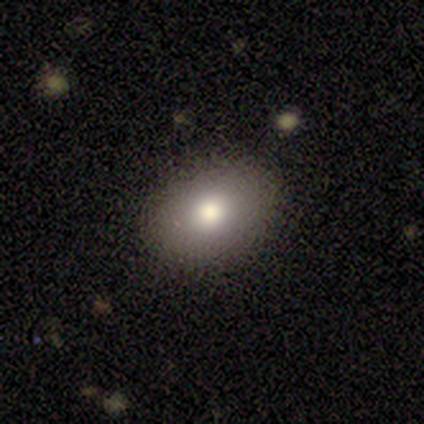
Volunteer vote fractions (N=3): Q: Smooth or featured?
A: smooth (100%)
Q: How rounded?
A: in between (100%)
Q: Merging?
A: none (100%)